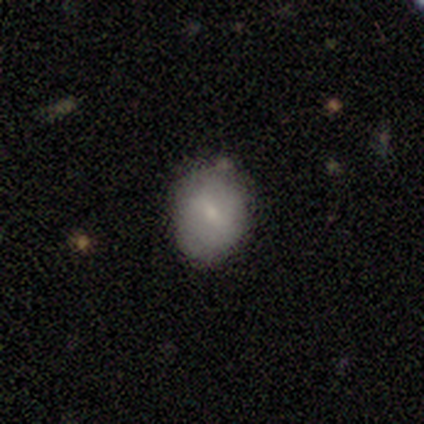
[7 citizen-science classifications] Smooth or featured? 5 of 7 (71%) said smooth. How rounded? 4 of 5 (80%) said round. Merging? 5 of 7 (71%) said none.